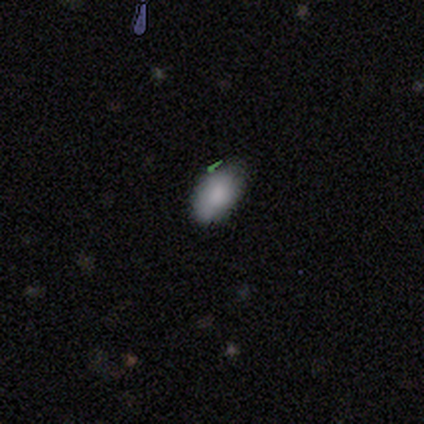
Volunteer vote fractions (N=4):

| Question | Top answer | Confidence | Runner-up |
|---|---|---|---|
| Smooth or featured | smooth | 50% | tied: featured or disk (50%) |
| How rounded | in between | 100% | — |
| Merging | none | 50% | minor disturbance (25%) |